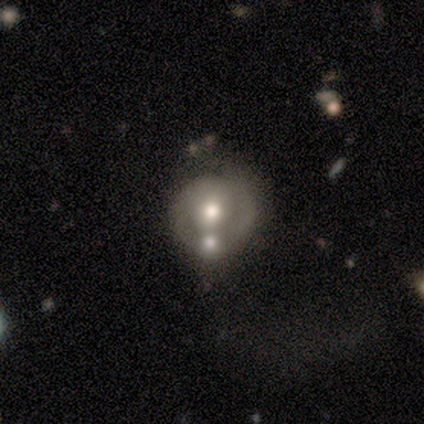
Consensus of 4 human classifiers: Smooth or featured?
  - featured or disk: 75% *
  - smooth: 25%
  - star or artifact: 0%
Edge-on disk?
  - no: 100% *
  - yes: 0%
Bar?
  - strong: 33% * (tied)
  - weak: 33% * (tied)
  - no: 33% * (tied)
Spiral arms?
  - no: 67% *
  - yes: 33%
Bulge size?
  - moderate: 67% *
  - large: 33%
  - dominant: 0%
  - small: 0%
  - none: 0%
Merging?
  - minor disturbance: 50% *
  - none: 25%
  - major disturbance: 25%
  - merger: 0%